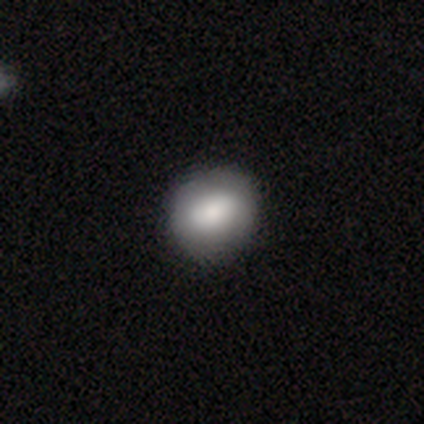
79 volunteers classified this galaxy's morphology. Overall: smooth (80%). How rounded: round (59%; in between 40%). Merging: none (57%).